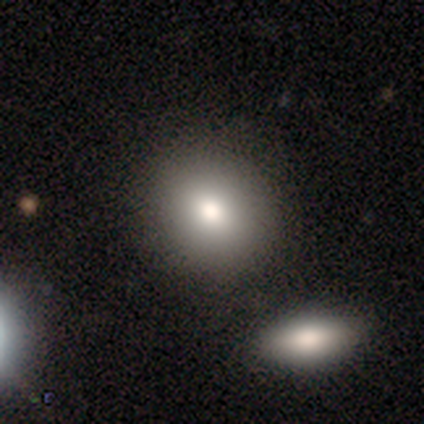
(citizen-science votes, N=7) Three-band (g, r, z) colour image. It shows a smooth galaxy with no disk features (100%) that is in between round and cigar-shaped (57%). Merging: none (71%).